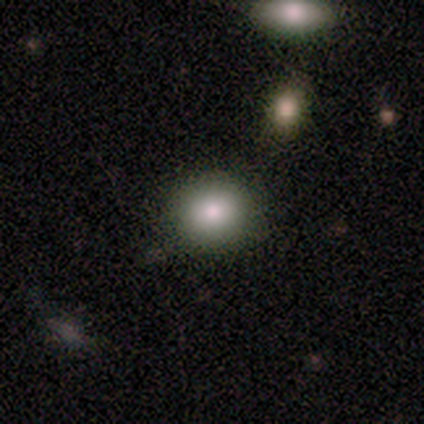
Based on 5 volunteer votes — smooth 100%, featured or disk 0%, star or artifact 0%. Down the decision tree: how rounded — round (100%); merging — none (80%).